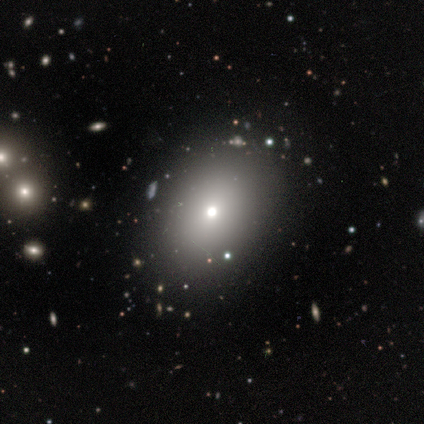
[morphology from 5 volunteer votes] smooth_or_featured: smooth (p=1.00)
how_rounded: in between (p=0.60) [alt: round p=0.40]
merging: none (p=1.00)